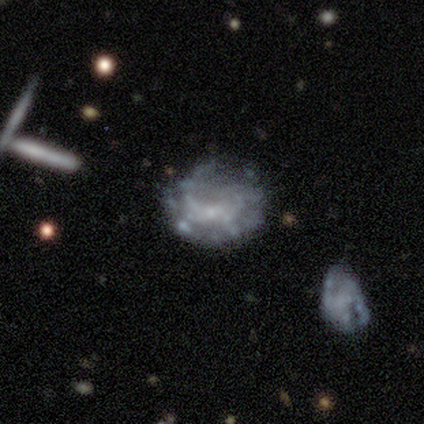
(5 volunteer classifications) Morphology: type=smooth (60%); roundness=in between (67%); merging=none (40%, tied with minor disturbance).